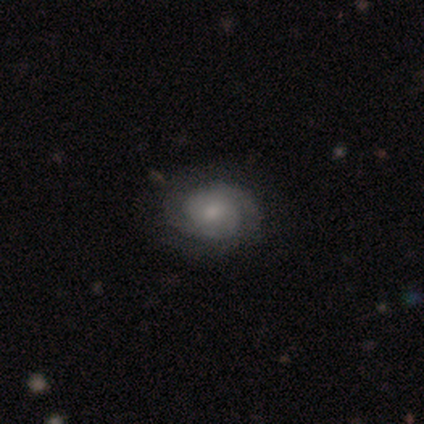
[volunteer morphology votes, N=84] This appears to be a featured or disk galaxy (79%) with no bar (73%), 2 (72%) tight (62%) spiral arms (92%) and a small central bulge (56%). Merging: none (80%).